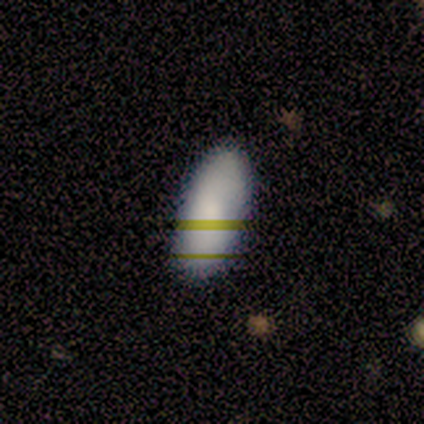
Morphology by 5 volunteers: This appears to be a smooth galaxy with no disk features (60%) that is in between round and cigar-shaped (100%). Merging: none (100%).